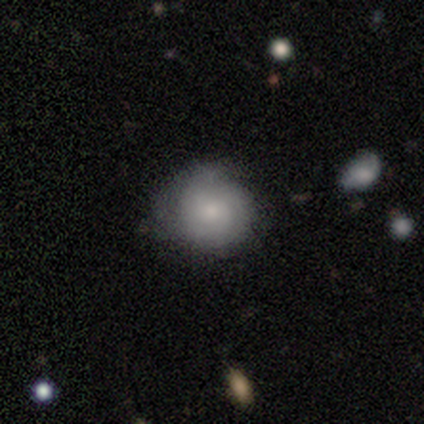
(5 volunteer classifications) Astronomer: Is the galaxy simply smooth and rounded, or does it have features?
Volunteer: featured or disk — 60% (runner-up: smooth, 40%).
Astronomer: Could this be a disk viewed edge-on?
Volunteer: no — 100%.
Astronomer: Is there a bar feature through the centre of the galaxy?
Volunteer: no — 100%.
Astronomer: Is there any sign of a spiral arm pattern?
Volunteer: no — 67%.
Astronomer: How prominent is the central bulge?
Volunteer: moderate — 67%.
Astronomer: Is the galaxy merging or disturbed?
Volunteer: none — 100%.